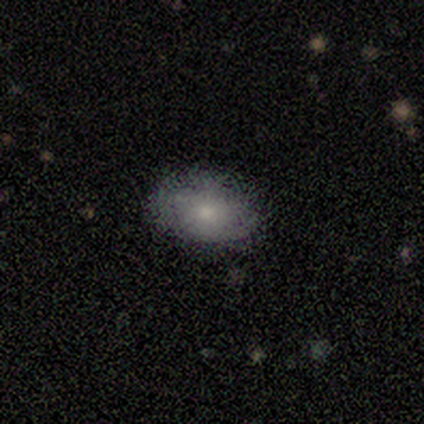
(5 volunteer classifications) smooth-or-featured: smooth: 100% | featured or disk: 0% | star or artifact: 0%
  how-rounded: in between: 80% | round: 20% | cigar-shaped: 0%
  merging: none: 80% | minor disturbance: 20% | major disturbance: 0% | merger: 0%